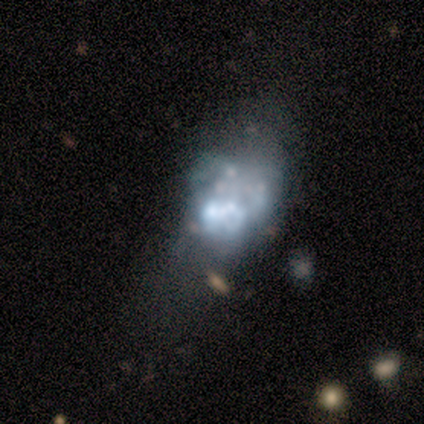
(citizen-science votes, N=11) featured or disk 82%, smooth 9%, star or artifact 9%. Down the decision tree: edge-on disk — no (100%); bar — no (89%); spiral arms — no (100%); bulge size — none (44%); merging — major disturbance (40%).